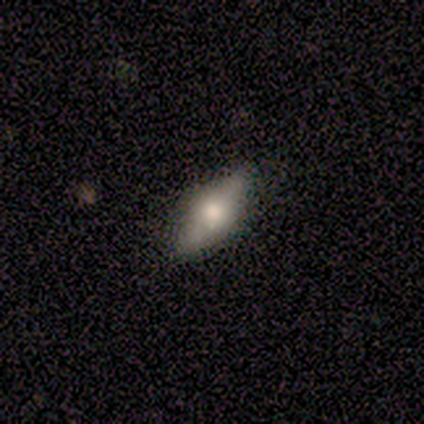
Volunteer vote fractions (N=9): Smooth or featured? 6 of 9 (67%) said smooth. How rounded? 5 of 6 (83%) said in between. Merging? 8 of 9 (89%) said none.